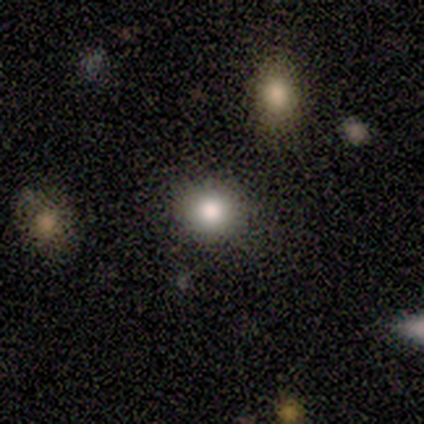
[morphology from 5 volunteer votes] Q: Smooth or featured?
A: smooth (100%)
Q: How rounded?
A: round (100%)
Q: Merging?
A: none (80%); runner-up: merger (20%)